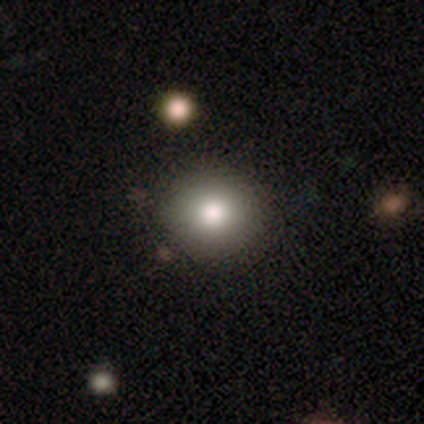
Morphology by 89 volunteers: Smooth or featured?
  - smooth: 74% *
  - star or artifact: 17%
  - featured or disk: 9%
How rounded?
  - round: 85% *
  - in between: 15%
  - cigar-shaped: 0%
Merging?
  - none: 92% *
  - minor disturbance: 4%
  - merger: 3%
  - major disturbance: 1%